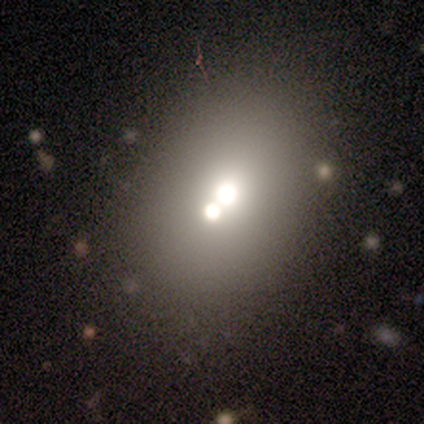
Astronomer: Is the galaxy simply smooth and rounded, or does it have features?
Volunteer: smooth — 62%.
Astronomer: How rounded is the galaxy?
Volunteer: in between — 52% (runner-up: round, 43%).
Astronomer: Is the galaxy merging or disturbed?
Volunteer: merger — 61%.